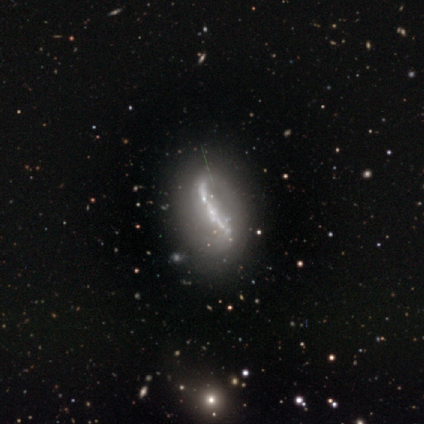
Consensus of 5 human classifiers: Overall: featured or disk (80%). Edge-on disk: yes (50%, tied with no). Edge-on bulge: none (100%). Merging: none (50%; minor disturbance 25%).